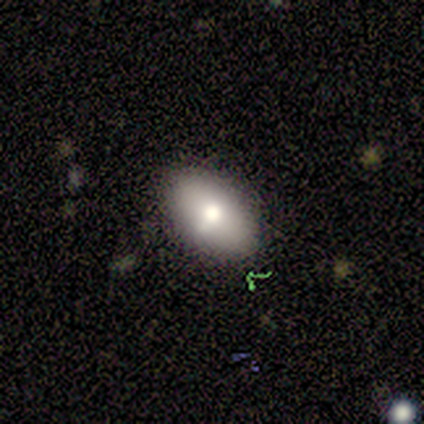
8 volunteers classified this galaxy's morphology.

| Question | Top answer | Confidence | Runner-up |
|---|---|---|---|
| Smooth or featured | smooth | 75% | featured or disk (12%) |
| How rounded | in between | 100% | — |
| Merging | none | 100% | — |